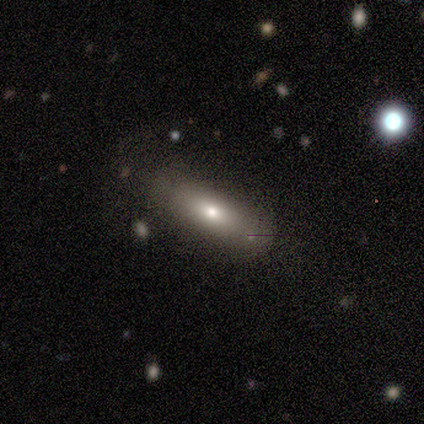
Morphology: type=smooth (100%); roundness=in between (60%); merging=none (100%).